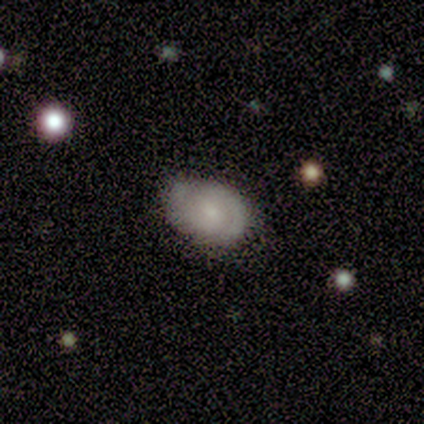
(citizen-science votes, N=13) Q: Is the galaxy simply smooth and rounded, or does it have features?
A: featured or disk — 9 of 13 (69%).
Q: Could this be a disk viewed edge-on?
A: no — 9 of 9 (100%).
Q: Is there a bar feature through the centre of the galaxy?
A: no — 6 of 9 (67%).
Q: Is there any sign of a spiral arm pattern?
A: yes — 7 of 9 (78%).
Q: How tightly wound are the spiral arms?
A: tight — 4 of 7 (57%).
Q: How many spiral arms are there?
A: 2 — 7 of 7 (100%).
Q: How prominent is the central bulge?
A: small — 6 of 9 (67%).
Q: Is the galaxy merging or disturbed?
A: none — 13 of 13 (100%).